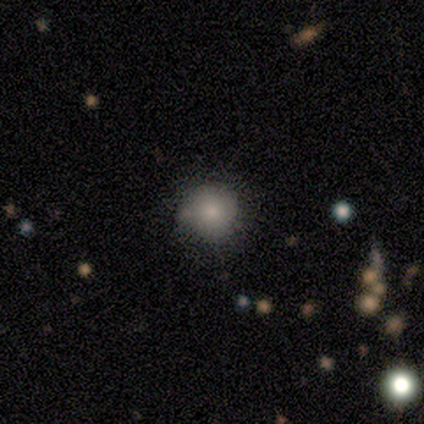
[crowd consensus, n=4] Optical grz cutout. It shows a smooth galaxy with no disk features (75%) that is round (67%). Merging: none (67%).